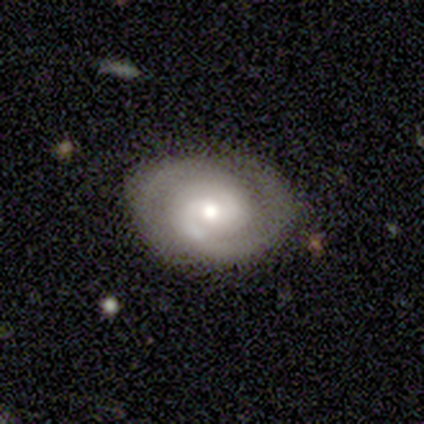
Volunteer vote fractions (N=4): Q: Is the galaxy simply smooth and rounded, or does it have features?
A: featured or disk — 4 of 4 (100%).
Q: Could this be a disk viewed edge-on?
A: no — 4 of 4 (100%).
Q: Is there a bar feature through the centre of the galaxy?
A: no — 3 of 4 (75%).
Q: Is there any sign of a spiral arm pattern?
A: yes — 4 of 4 (100%).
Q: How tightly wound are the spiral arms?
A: tight — 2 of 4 (50%, tied with medium).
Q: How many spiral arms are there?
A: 2 — 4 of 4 (100%).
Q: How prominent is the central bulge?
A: moderate — 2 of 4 (50%, tied with small).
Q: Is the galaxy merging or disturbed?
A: none — 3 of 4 (75%).